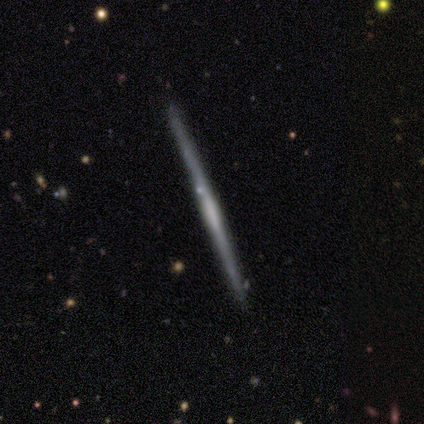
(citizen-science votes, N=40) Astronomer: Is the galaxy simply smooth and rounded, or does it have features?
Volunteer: featured or disk — 72%.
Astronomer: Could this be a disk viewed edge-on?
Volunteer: yes — 100%.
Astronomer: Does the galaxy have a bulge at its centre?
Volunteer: none — 41% (runner-up: rounded, 34%).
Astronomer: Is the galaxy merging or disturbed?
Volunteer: none — 95%.